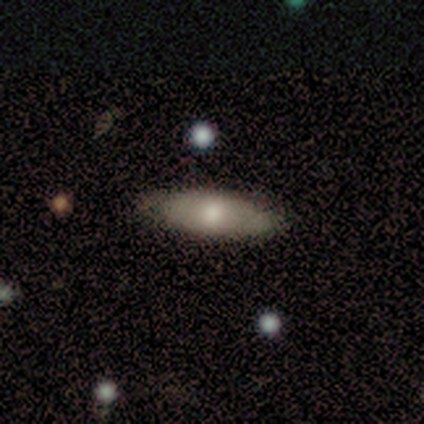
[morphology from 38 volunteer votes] Q: Smooth or featured?
A: smooth (58%); runner-up: featured or disk (32%)
Q: How rounded?
A: in between (77%); runner-up: cigar-shaped (23%)
Q: Merging?
A: none (85%); runner-up: minor disturbance (15%)